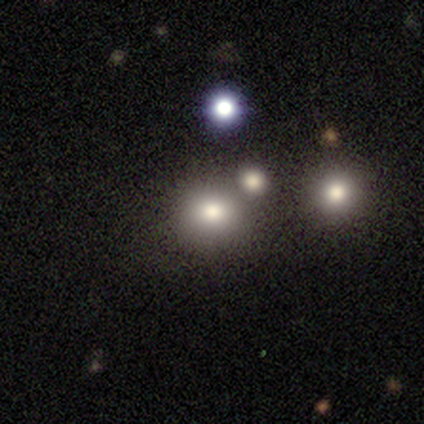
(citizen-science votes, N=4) smooth 100%, featured or disk 0%, star or artifact 0%. Down the decision tree: how rounded — round (75%); merging — none (75%).